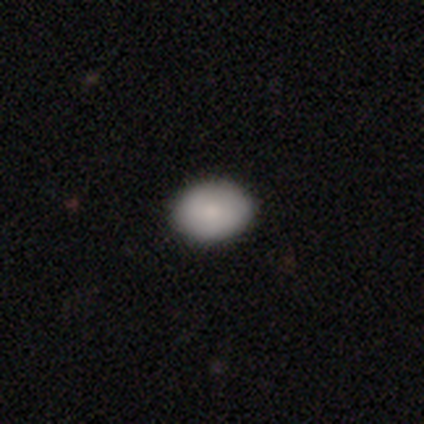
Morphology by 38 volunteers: Overall: smooth (95%). How rounded: in between (86%). Merging: none (89%).